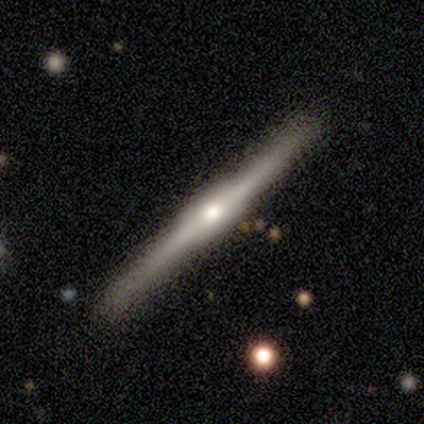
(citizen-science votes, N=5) smooth-or-featured: featured or disk: 60% | smooth: 40% | star or artifact: 0%
  disk-edge-on: yes: 100% | no: 0%
    edge-on-bulge: boxy: 67% | rounded: 33% | none: 0%
  merging: none: 100% | minor disturbance: 0% | major disturbance: 0% | merger: 0%